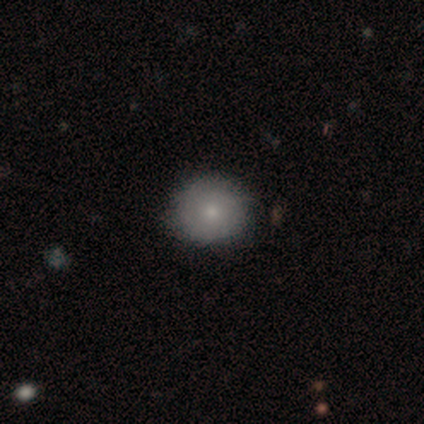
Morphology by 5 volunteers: Smooth or featured? 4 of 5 (80%) said smooth. How rounded? 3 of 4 (75%) said round. Merging? 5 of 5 (100%) said none.